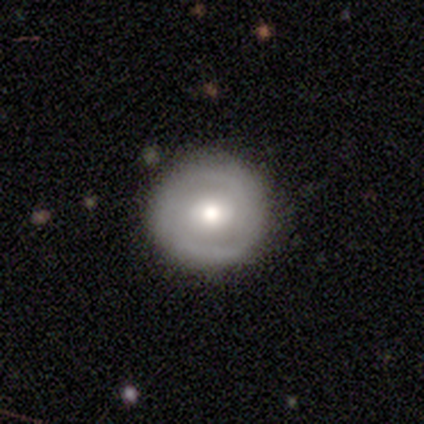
Volunteers were most divided on "spiral arms": yes: 52%, no: 48%. More confident: edge-on disk — no (96%); bar — no (84%); merging — none (76%); smooth or featured — featured or disk (68%); bulge size — moderate (68%); spiral arm count — 2 (62%); spiral winding — tight (54%).